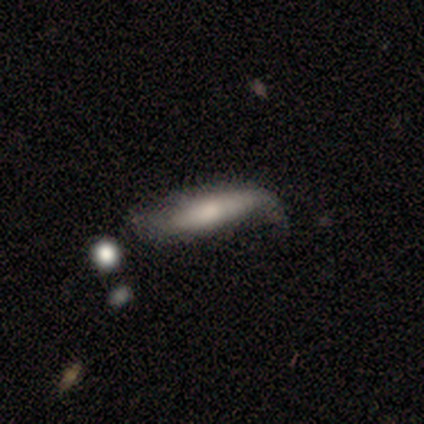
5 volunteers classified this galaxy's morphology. A smooth galaxy with no disk features (80%) that is cigar-shaped (75%). Merging: none (40%, tied with minor disturbance).